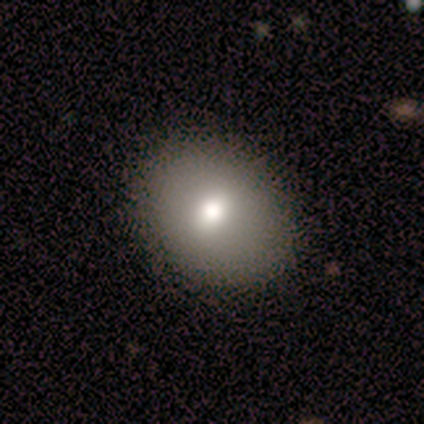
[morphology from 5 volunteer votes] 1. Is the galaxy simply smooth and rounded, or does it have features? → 100% smooth, 0% featured or disk, 0% star or artifact.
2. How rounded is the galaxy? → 60% in between, 40% round, 0% cigar-shaped.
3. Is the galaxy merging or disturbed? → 60% none, 40% minor disturbance, 0% major disturbance, 0% merger.